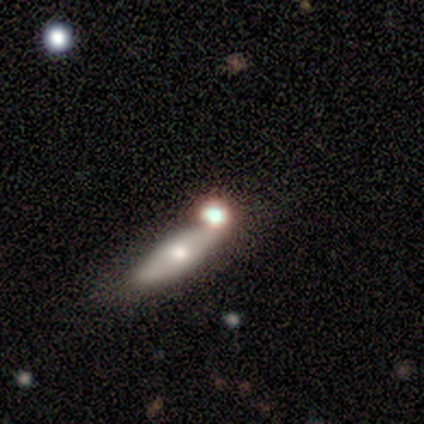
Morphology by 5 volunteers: This is likely a smooth galaxy (60%). How rounded: clearly in between (100%). Merging: marginally minor disturbance (40%, tied with merger).